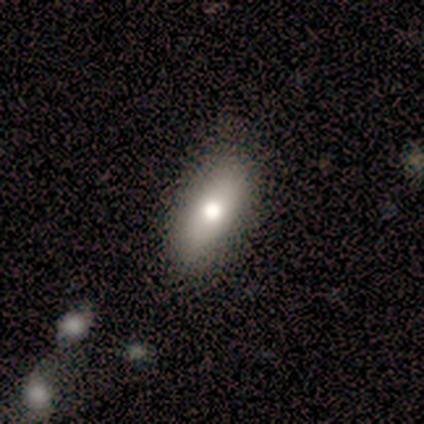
A smooth galaxy with no disk features (67%) that is in between round and cigar-shaped (50%, tied with cigar-shaped). Merging: none (100%).